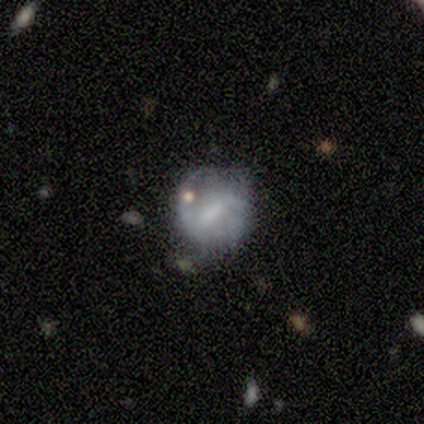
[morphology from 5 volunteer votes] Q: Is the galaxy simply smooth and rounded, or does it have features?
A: smooth — 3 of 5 (60%).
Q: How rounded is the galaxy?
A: round — 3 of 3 (100%).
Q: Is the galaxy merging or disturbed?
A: none — 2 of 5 (40%, tied with minor disturbance).